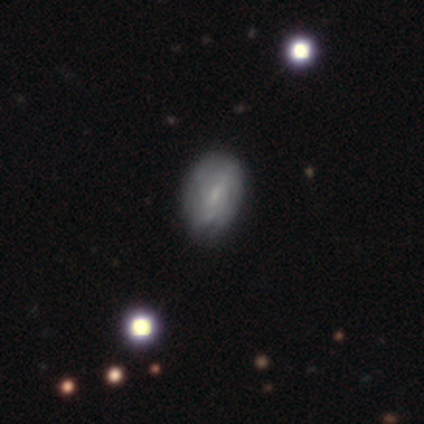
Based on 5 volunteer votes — smooth-or-featured: smooth: 40% (tied) | featured or disk: 40% (tied) | star or artifact: 20%
  how-rounded: in between: 100% | round: 0% | cigar-shaped: 0%
  merging: none: 100% | minor disturbance: 0% | major disturbance: 0% | merger: 0%